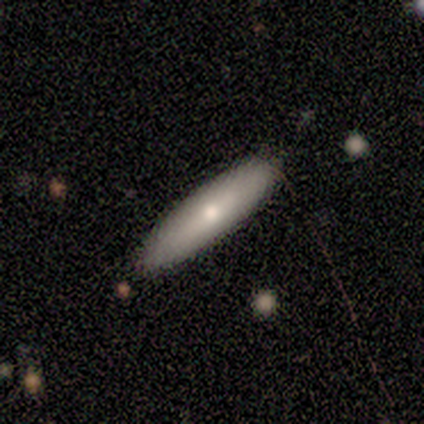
Smooth or featured: smooth — 71% (featured or disk — 29%)
How rounded: cigar-shaped — 80% (in between — 20%)
Merging: none — 57% (minor disturbance — 43%)